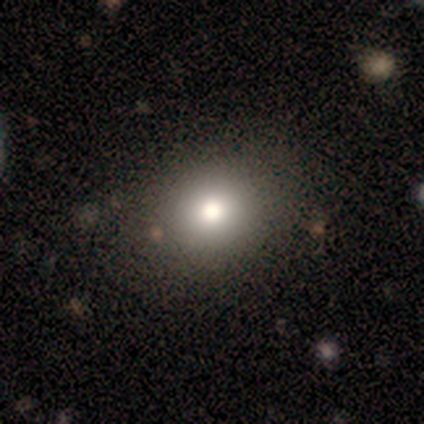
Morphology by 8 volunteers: A smooth galaxy with no disk features (75%) that is round (67%). Merging: none (100%).